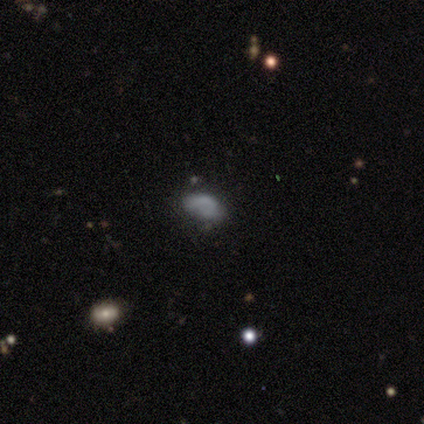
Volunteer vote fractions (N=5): Overall: featured or disk (40%, tied with star or artifact). Edge-on disk: no (100%). Bar: no (100%). Spiral arms: no (100%). Bulge size: none (100%). Merging: none (67%; merger 33%).